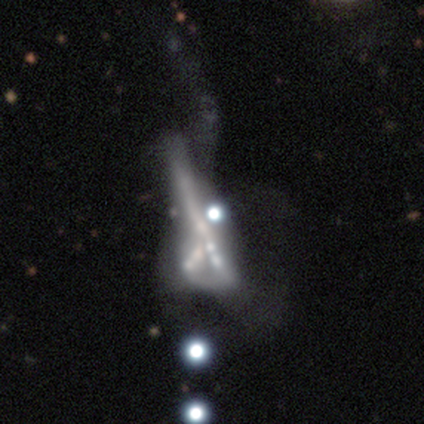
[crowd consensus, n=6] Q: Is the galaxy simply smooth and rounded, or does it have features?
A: star or artifact — 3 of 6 (50%).